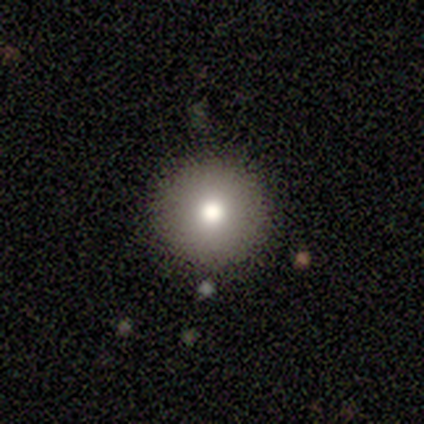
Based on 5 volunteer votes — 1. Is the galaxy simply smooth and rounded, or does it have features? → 60% smooth, 20% featured or disk, 20% star or artifact.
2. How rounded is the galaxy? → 100% round, 0% in between, 0% cigar-shaped.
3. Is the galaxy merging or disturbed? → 75% none, 25% minor disturbance, 0% major disturbance, 0% merger.